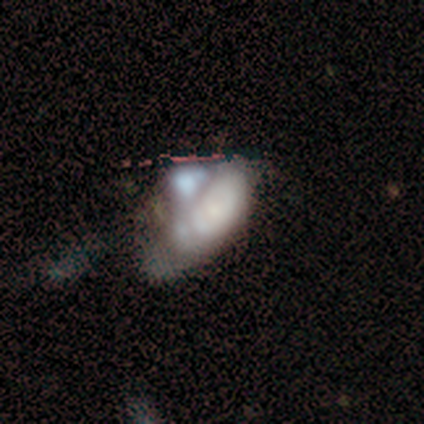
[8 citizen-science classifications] Smooth or featured: featured or disk — 75% (smooth — 12%)
Edge-on disk: no — 100%
Bar: no — 100%
Spiral arms: no — 100%
Bulge size: large — 33% (tied with small — 33%)
Merging: merger — 57% (major disturbance — 29%)